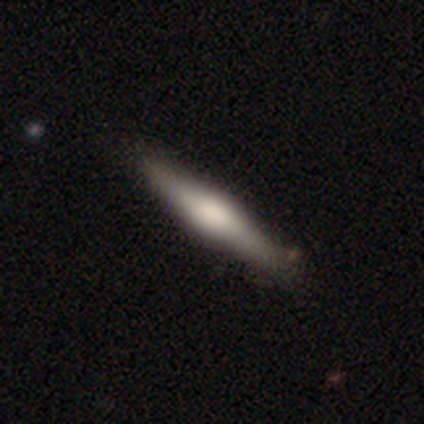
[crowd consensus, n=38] A featured or disk galaxy (53%) viewed edge-on (95%) with a rounded central bulge (84%). Merging: none (88%).